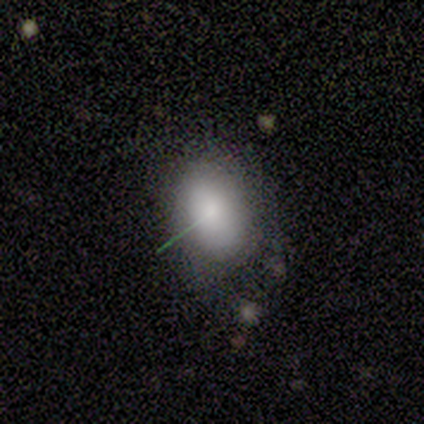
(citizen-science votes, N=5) Morphology: type=smooth (80%); roundness=in between (75%); merging=none (60%).